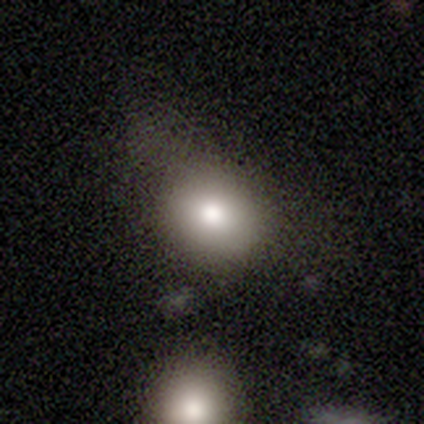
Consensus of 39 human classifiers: Volunteers were most divided on "merging": none: 32%, minor disturbance: 29%, major disturbance: 16%, merger: 5%. More confident: smooth or featured — smooth (79%); how rounded — round (71%).